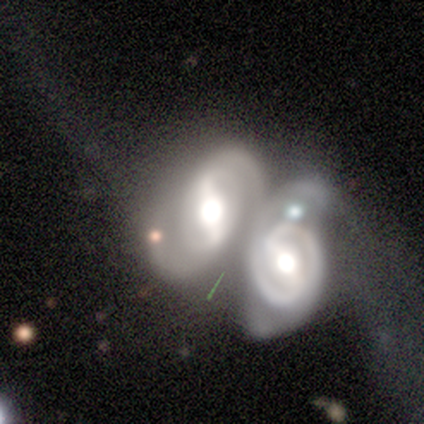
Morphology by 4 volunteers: This appears to be a featured or disk galaxy (100%) with a strong bar (50%, tied with no), 2 (100%) medium (50%) spiral arms (100%) and a moderate central bulge (75%). Merging: merger (100%).